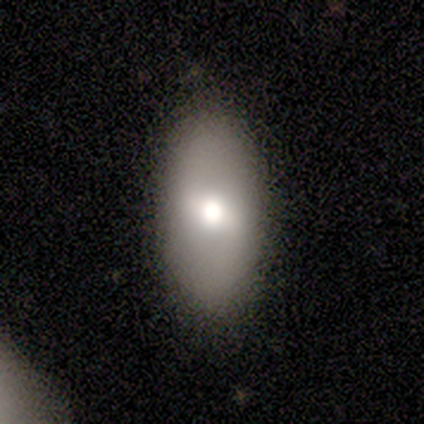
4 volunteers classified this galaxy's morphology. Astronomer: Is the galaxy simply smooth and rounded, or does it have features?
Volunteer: smooth — 50%, tied with featured or disk at 50%.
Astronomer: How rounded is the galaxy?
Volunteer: in between — 100%.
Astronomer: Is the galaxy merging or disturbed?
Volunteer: minor disturbance — 50%.